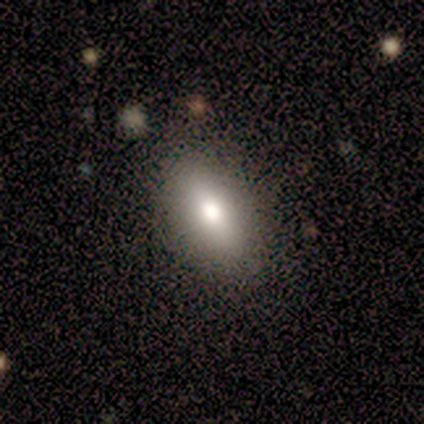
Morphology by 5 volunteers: A smooth galaxy with no disk features (80%) that is in between round and cigar-shaped (75%). Merging: none (100%).